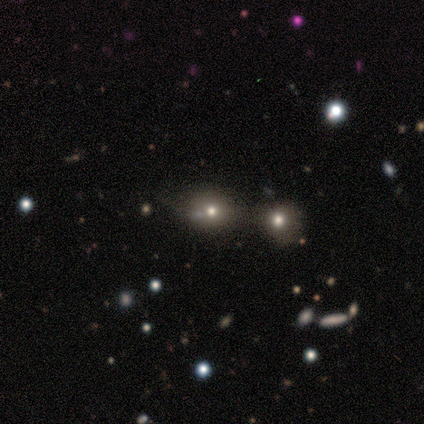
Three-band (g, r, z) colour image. It shows a star or artifact, not a galaxy (71%).